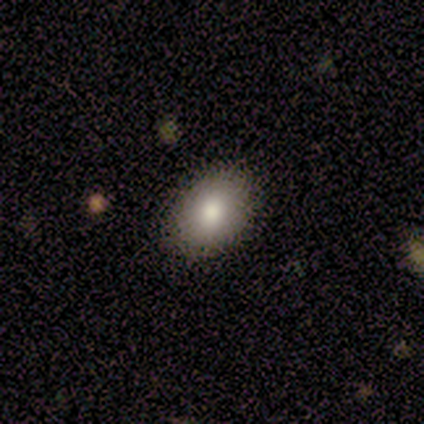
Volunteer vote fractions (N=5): smooth 80%, featured or disk 20%, star or artifact 0%. Down the decision tree: how rounded — in between (75%); merging — none (80%).